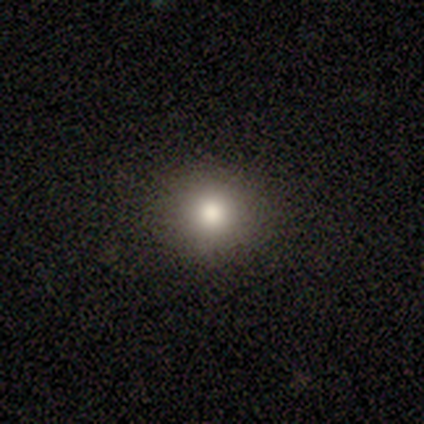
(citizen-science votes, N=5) smooth 80%, featured or disk 20%, star or artifact 0%. Down the decision tree: how rounded — round (100%); merging — none (100%).